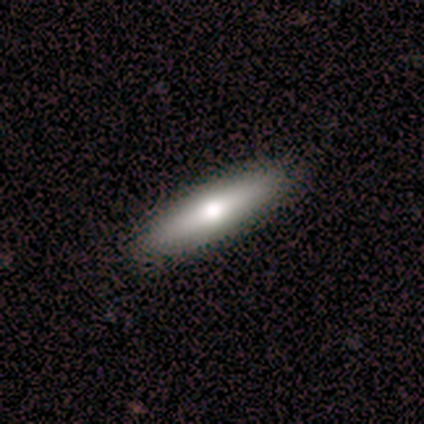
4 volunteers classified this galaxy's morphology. Smooth or featured? smooth (50%)
How rounded? in between (50%, tied with cigar-shaped)
Merging? none (100%)